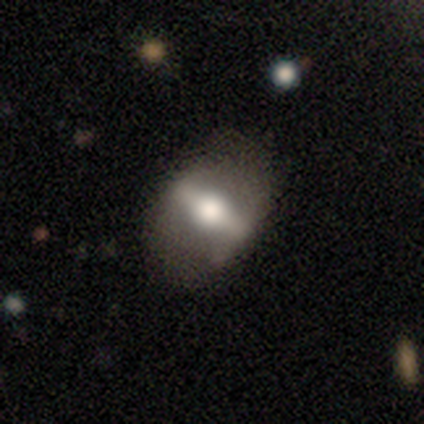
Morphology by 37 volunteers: Smooth or featured: featured or disk — 76% (smooth — 22%)
Edge-on disk: no — 71% (yes — 29%)
Bar: strong — 70% (weak — 20%)
Spiral arms: no — 90% (yes — 10%)
Bulge size: moderate — 50% (large — 45%)
Merging: none — 75% (minor disturbance — 14%)